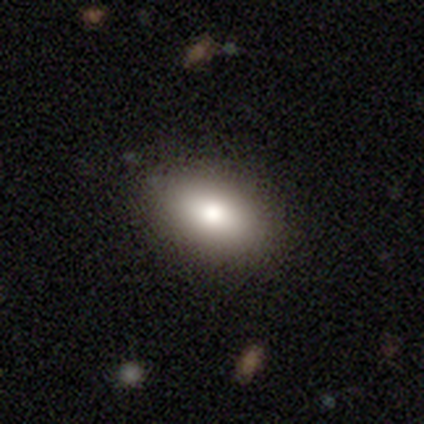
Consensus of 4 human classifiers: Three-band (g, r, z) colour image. It shows a smooth galaxy with no disk features (75%) that is in between round and cigar-shaped (100%). Merging: none (100%).